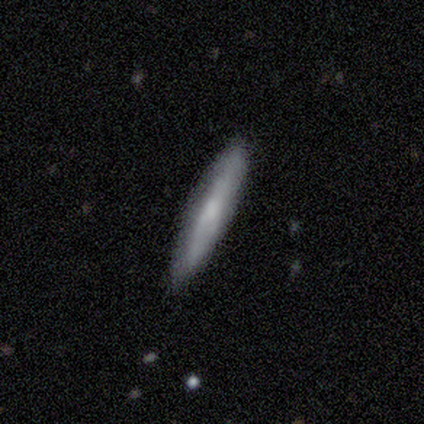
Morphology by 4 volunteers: Smooth or featured: smooth — 50% (tied with featured or disk — 50%)
How rounded: in between — 50% (tied with cigar-shaped — 50%)
Merging: none — 75% (minor disturbance — 25%)